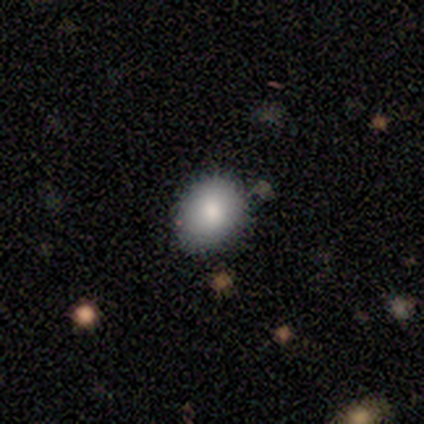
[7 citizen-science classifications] This is clearly a smooth galaxy (86%). How rounded: likely round (67%). Merging: clearly none (100%).